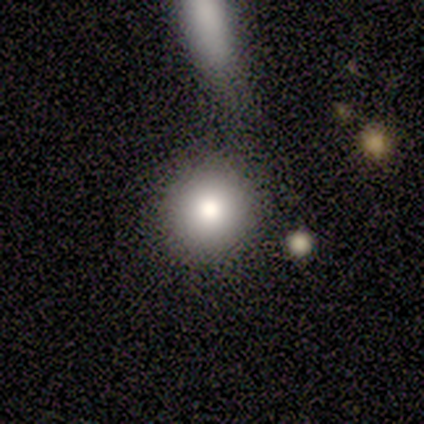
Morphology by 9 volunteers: This is likely a smooth galaxy (67%). How rounded: clearly round (100%). Merging: clearly none (88%).